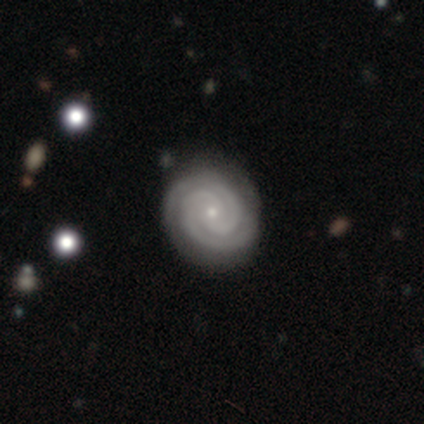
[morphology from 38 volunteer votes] Smooth or featured: featured or disk — 89% (smooth — 5%)
Edge-on disk: no — 94% (yes — 6%)
Bar: no — 75% (weak — 19%)
Spiral arms: yes — 100%
Spiral winding: tight — 91% (medium — 9%)
Spiral arm count: 2 — 75% (3 — 9%)
Bulge size: small — 91% (dominant — 3%)
Merging: none — 67% (minor disturbance — 28%)